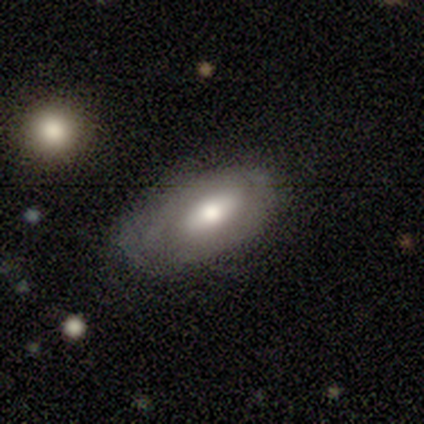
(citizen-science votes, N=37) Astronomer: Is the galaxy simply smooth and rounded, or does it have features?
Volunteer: smooth — 51% (runner-up: featured or disk, 49%).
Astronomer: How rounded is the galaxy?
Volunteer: in between — 79%.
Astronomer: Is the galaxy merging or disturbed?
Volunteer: none — 65%.